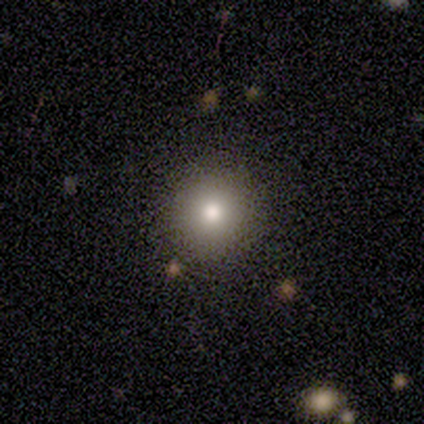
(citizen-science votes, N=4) Overall: smooth (50%, tied with star or artifact). How rounded: round (50%, tied with in between). Merging: none (50%, tied with minor disturbance).